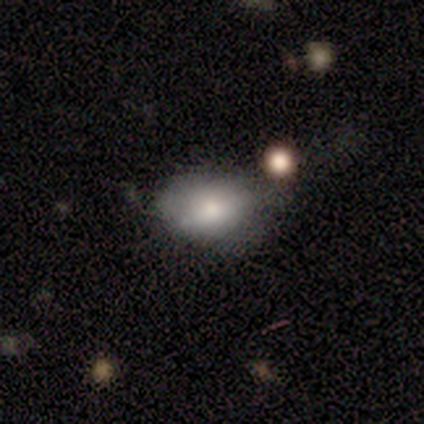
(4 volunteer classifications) Volunteers were most divided on "merging": minor disturbance: 75%, major disturbance: 25%, none: 0%, merger: 0%. More confident: smooth or featured — smooth (100%); how rounded — in between (100%).